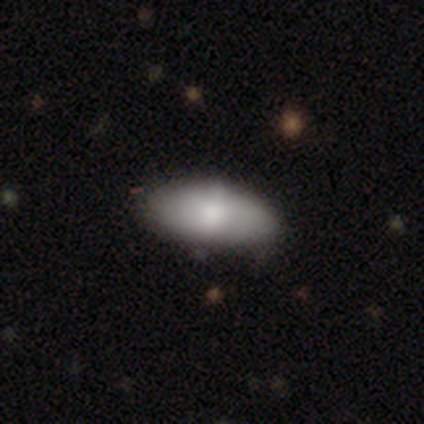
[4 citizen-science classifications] Q: Smooth or featured?
A: smooth (75%); runner-up: star or artifact (25%)
Q: How rounded?
A: in between (100%)
Q: Merging?
A: none (67%); runner-up: minor disturbance (33%)